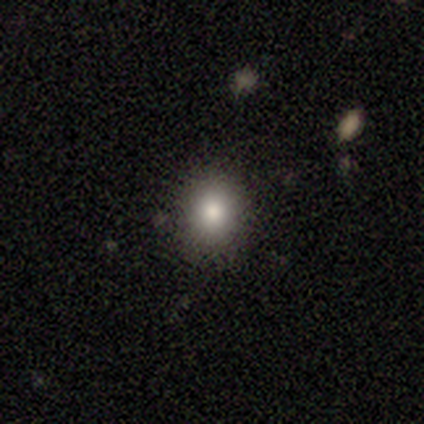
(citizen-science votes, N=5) smooth-or-featured: smooth: 100% | featured or disk: 0% | star or artifact: 0%
  how-rounded: round: 80% | in between: 20% | cigar-shaped: 0%
  merging: none: 100% | minor disturbance: 0% | major disturbance: 0% | merger: 0%